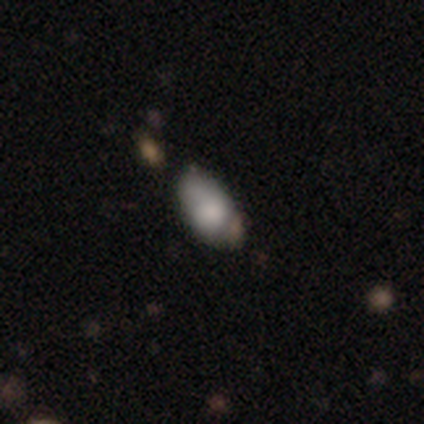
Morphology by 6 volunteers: A smooth galaxy with no disk features (50%, tied with featured or disk) that is in between round and cigar-shaped (100%). Merging: none (50%, tied with minor disturbance).